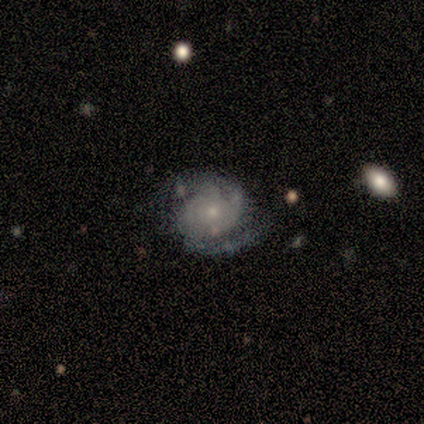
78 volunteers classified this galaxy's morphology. A featured or disk galaxy (79%) with no bar (87%), 2 (56%) tight (54%) spiral arms (92%) and a small central bulge (76%). Merging: none (55%).